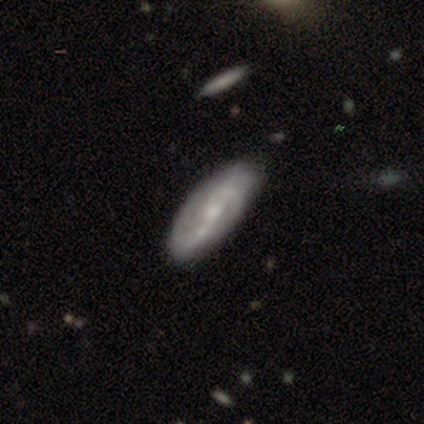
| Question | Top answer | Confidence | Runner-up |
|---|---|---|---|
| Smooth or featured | featured or disk | 69% | smooth (27%) |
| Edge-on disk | no | 87% | yes (13%) |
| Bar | strong | 36% | tied: weak (36%) |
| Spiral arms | yes | 97% | no (3%) |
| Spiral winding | medium | 41% | tight (31%) |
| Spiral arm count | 2 | 62% | can't tell (19%) |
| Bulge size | small | 55% | moderate (45%) |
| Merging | none | 75% | minor disturbance (19%) |